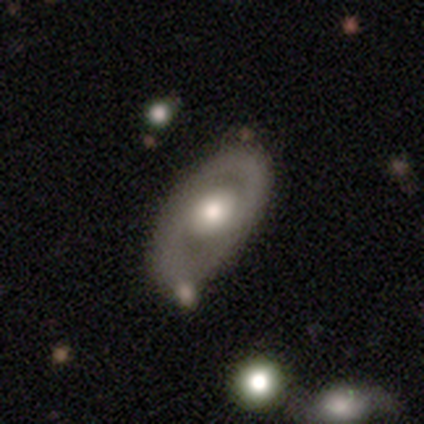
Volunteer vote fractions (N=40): Q: Smooth or featured?
A: featured or disk (57%); runner-up: smooth (32%)
Q: Edge-on disk?
A: no (96%); runner-up: yes (4%)
Q: Bar?
A: no (77%); runner-up: strong (14%)
Q: Spiral arms?
A: no (59%); runner-up: yes (41%)
Q: Bulge size?
A: moderate (55%); runner-up: large (32%)
Q: Merging?
A: none (75%); runner-up: minor disturbance (19%)